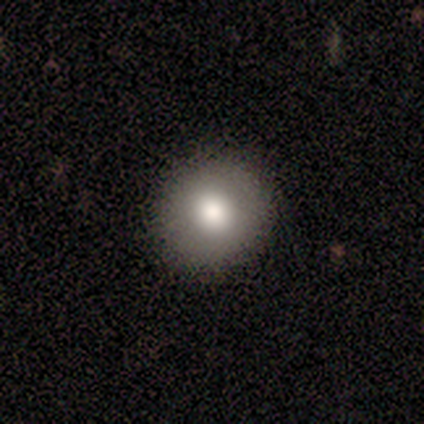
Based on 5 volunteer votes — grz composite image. It shows a smooth galaxy with no disk features (60%) that is round (100%). Merging: none (100%).